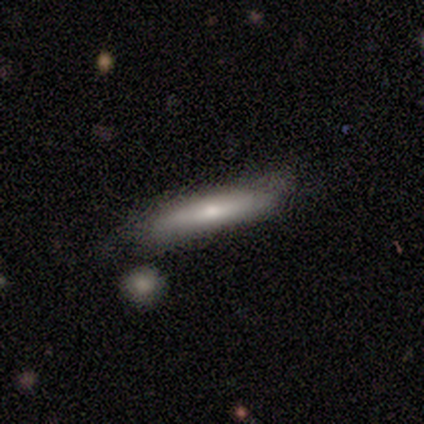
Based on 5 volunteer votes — A featured or disk galaxy (60%) viewed edge-on (100%) with a rounded central bulge (67%).

Vote fractions:
- Smooth or featured? featured or disk: 60% / smooth: 40% / star or artifact: 0%
- Edge-on disk? yes: 100% / no: 0%
- Edge-on bulge? rounded: 67% / none: 33% / boxy: 0%
- Merging? none: 80% / minor disturbance: 20% / major disturbance: 0% / merger: 0%